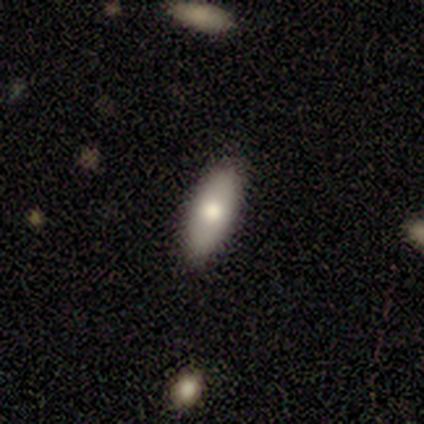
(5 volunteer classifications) Smooth or featured?
  - smooth: 60% *
  - featured or disk: 40%
  - star or artifact: 0%
How rounded?
  - cigar-shaped: 67% *
  - in between: 33%
  - round: 0%
Merging?
  - none: 80% *
  - minor disturbance: 20%
  - major disturbance: 0%
  - merger: 0%